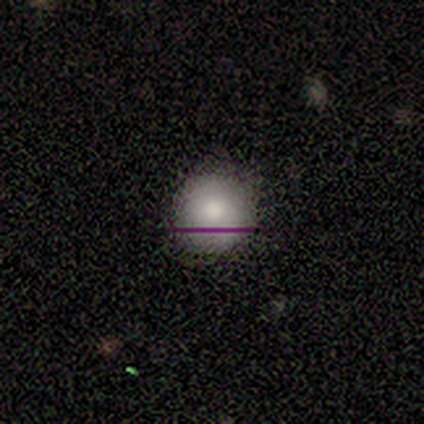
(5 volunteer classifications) This is clearly a smooth galaxy (80%). How rounded: clearly round (100%). Merging: clearly none (100%).